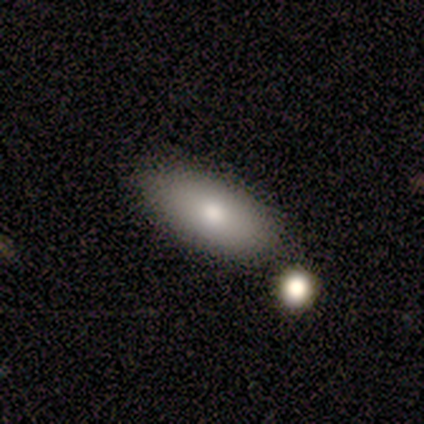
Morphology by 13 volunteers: type=smooth (69%); roundness=in between (89%); merging=none (100%).